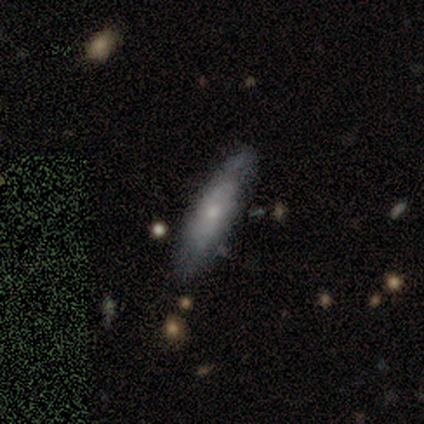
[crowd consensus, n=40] Smooth or featured? featured or disk (52%)
Edge-on disk? yes (52%)
Edge-on bulge? rounded (55%)
Merging? none (68%)